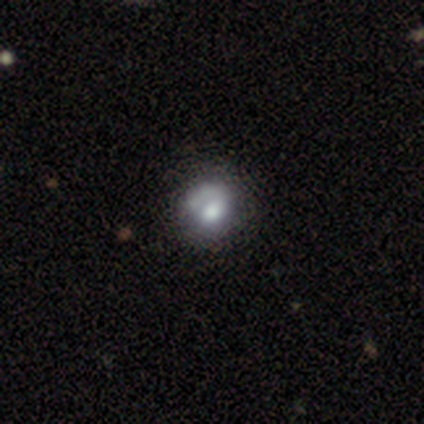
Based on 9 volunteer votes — Volunteers were most divided on "merging" (2-way tie): none: 50%, minor disturbance: 50%, major disturbance: 0%, merger: 0%. More confident: how rounded — round (100%); smooth or featured — smooth (56%).